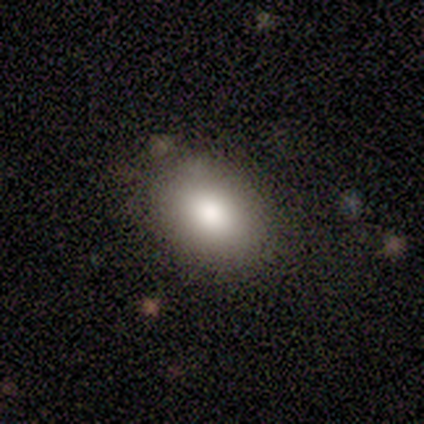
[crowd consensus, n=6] Overall: smooth (83%). How rounded: in between (80%). Merging: none (83%).